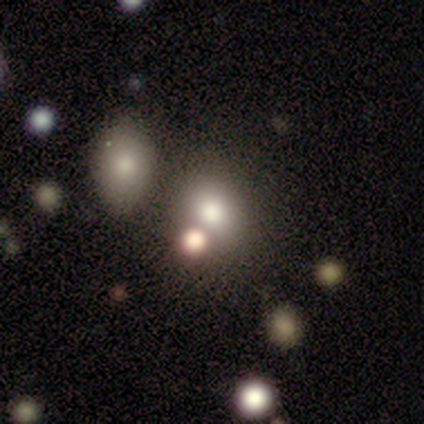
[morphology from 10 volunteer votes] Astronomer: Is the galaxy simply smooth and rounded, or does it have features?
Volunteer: smooth — 80%.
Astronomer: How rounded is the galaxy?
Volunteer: round — 100%.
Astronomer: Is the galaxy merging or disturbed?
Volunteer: none — 80%.